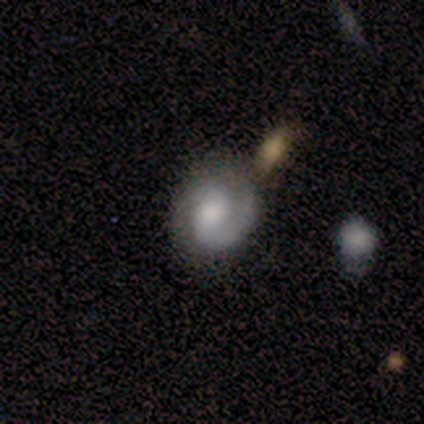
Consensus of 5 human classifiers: Overall: featured or disk (80%). Edge-on disk: no (100%). Bar: weak (50%, tied with no). Spiral arms: yes (75%). Spiral arm count: 1 (67%; 2 33%). Spiral winding: tight (67%; loose 33%). Bulge size: moderate (50%; small 25%). Merging: none (60%; major disturbance 20%).